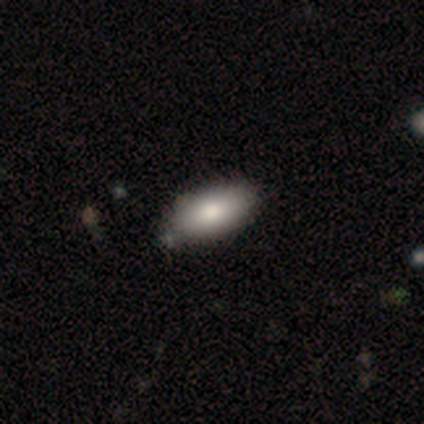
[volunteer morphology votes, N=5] This appears to be a smooth galaxy with no disk features (40%, tied with star or artifact) that is round (50%, tied with in between). Merging: none (33%, tied with minor disturbance and merger).